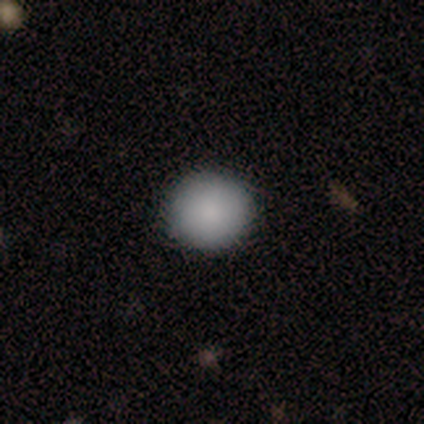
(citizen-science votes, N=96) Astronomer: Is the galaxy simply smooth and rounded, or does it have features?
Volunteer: smooth — 86%.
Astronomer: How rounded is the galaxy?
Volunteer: round — 95%.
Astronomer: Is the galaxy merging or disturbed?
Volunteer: none — 94%.